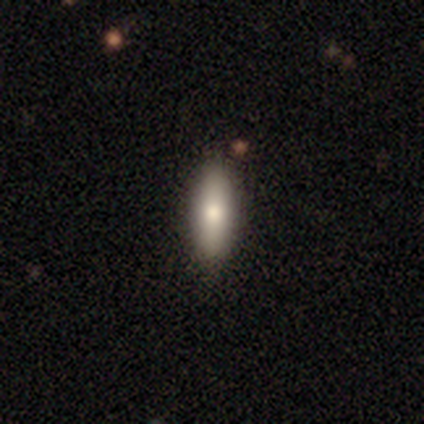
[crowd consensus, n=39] Morphology: type=smooth (67%); roundness=cigar-shaped (50%); merging=none (88%).